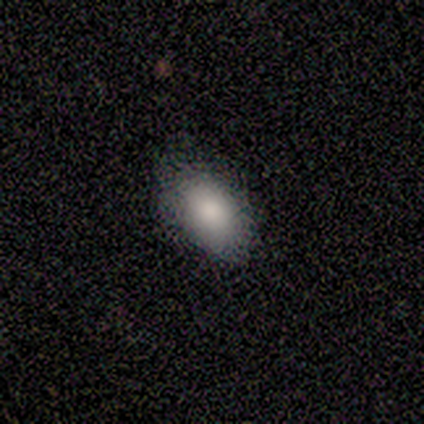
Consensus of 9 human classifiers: Smooth or featured?
  - smooth: 100% *
  - featured or disk: 0%
  - star or artifact: 0%
How rounded?
  - in between: 89% *
  - cigar-shaped: 11%
  - round: 0%
Merging?
  - none: 56% *
  - minor disturbance: 44%
  - major disturbance: 0%
  - merger: 0%